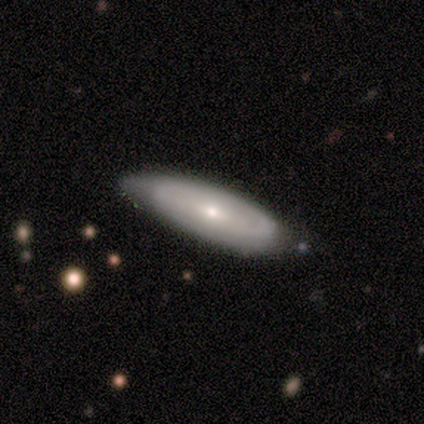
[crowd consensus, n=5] smooth-or-featured: featured or disk: 80% | star or artifact: 20% | smooth: 0%
  disk-edge-on: no: 100% | yes: 0%
    bar: weak: 50% (tied) | no: 50% (tied) | strong: 0%
    has-spiral-arms: yes: 75% | no: 25%
      spiral-winding: tight: 67% | medium: 33% | loose: 0%
      spiral-arm-count: 2: 67% | can't tell: 33% | 1: 0% | 3: 0% | 4: 0% | more than 4: 0%
    bulge-size: moderate: 50% (tied) | small: 50% (tied) | dominant: 0% | large: 0% | none: 0%
  merging: none: 75% | minor disturbance: 25% | major disturbance: 0% | merger: 0%